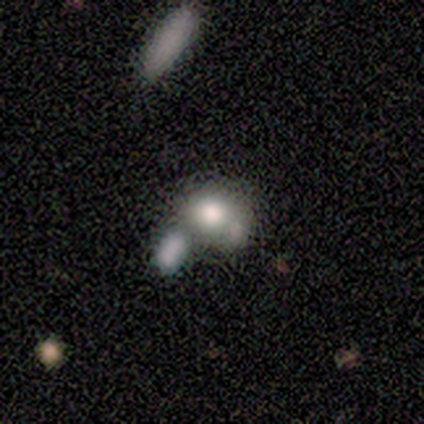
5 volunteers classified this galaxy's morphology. smooth_or_featured: smooth (p=0.80) [alt: star or artifact p=0.20]
how_rounded: round (p=0.75) [alt: in between p=0.25]
merging: none (p=0.50) [tied with: merger p=0.50]